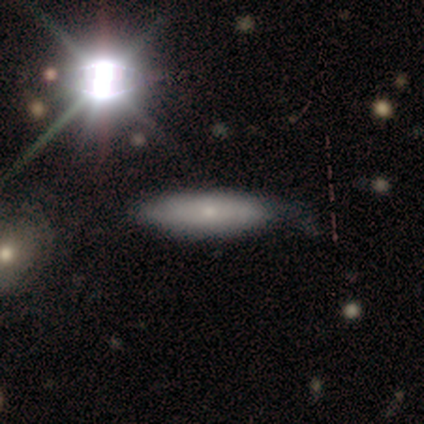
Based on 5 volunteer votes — This is likely a smooth galaxy (60%). How rounded: likely cigar-shaped (67%). Merging: clearly none (100%).